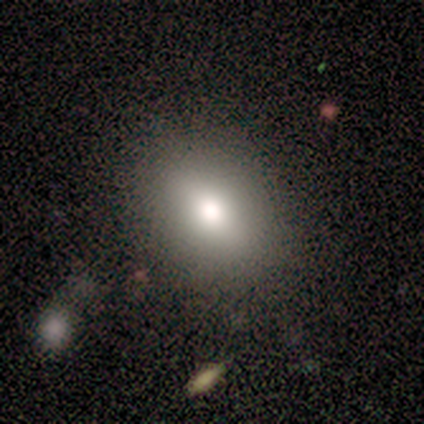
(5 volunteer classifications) Volunteers were most divided on "how rounded": in between: 75%, cigar-shaped: 25%, round: 0%. More confident: merging — none (100%); smooth or featured — smooth (80%).